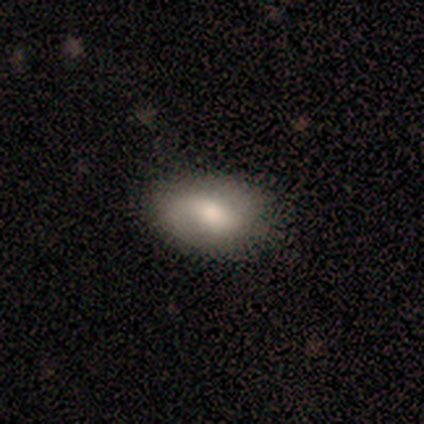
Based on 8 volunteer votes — This appears to be a smooth galaxy with no disk features (75%) that is in between round and cigar-shaped (100%). Merging: none (75%).